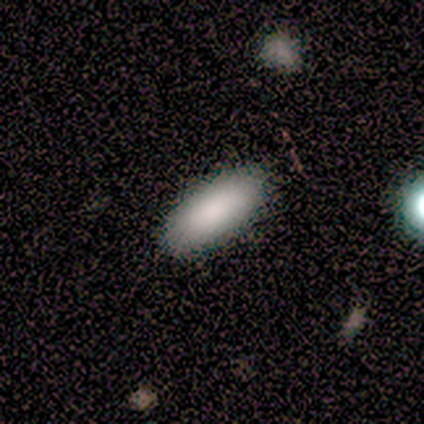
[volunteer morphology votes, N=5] Smooth or featured?
  - smooth: 100% *
  - featured or disk: 0%
  - star or artifact: 0%
How rounded?
  - in between: 80% *
  - cigar-shaped: 20%
  - round: 0%
Merging?
  - none: 100% *
  - minor disturbance: 0%
  - major disturbance: 0%
  - merger: 0%